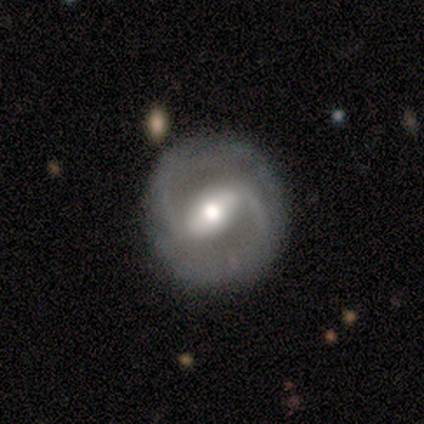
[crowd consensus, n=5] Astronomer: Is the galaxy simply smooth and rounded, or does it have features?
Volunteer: featured or disk — 100%.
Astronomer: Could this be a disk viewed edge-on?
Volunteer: no — 100%.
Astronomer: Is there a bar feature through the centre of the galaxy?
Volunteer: strong — 100%.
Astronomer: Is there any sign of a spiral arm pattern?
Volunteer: yes — 80%.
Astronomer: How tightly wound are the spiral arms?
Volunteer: tight — 50%, tied with medium at 50%.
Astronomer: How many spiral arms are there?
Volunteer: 2 — 50%, tied with can't tell at 50%.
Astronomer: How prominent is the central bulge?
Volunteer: moderate — 60%.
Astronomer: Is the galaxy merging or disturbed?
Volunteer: none — 100%.